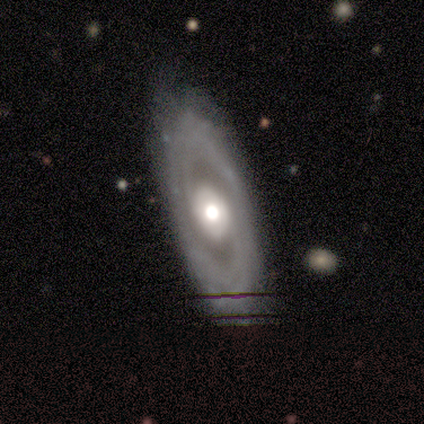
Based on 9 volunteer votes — A featured or disk galaxy (89%) with no bar (62%), 2 (62%) medium (62%) spiral arms (100%) and a moderate central bulge (75%). Merging: none (78%).